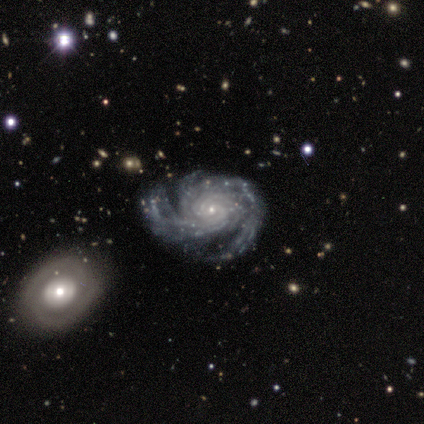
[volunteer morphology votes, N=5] type=featured or disk (100%); edge-on=no (100%); bar=weak (60%); spiral arms=yes (100%); winding=medium (80%); arm count=2 (40%, tied with can't tell); bulge=small (100%); merging=none (80%).